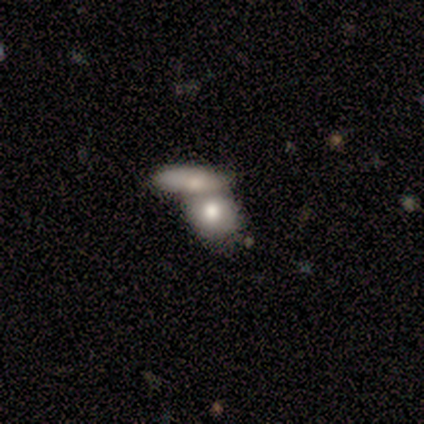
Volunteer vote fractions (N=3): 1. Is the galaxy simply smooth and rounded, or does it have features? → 67% featured or disk, 33% smooth, 0% star or artifact.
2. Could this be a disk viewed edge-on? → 100% no, 0% yes.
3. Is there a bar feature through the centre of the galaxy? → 100% no, 0% strong, 0% weak.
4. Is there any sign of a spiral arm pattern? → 100% no, 0% yes.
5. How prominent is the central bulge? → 50% moderate (tied), 50% small (tied), 0% dominant, 0% large, 0% none.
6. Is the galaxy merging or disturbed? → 100% merger, 0% none, 0% minor disturbance, 0% major disturbance.